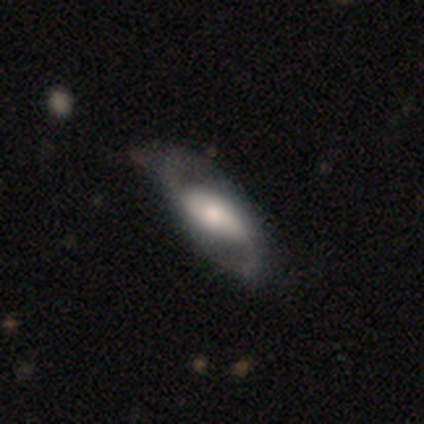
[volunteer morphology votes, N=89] Smooth or featured: featured or disk — 76% (smooth — 17%)
Edge-on disk: no — 84% (yes — 16%)
Bar: no — 44% (weak — 33%)
Spiral arms: yes — 86% (no — 14%)
Spiral winding: loose — 57% (medium — 41%)
Spiral arm count: 2 — 96% (1 — 2%)
Bulge size: moderate — 51% (small — 32%)
Merging: none — 76% (minor disturbance — 19%)